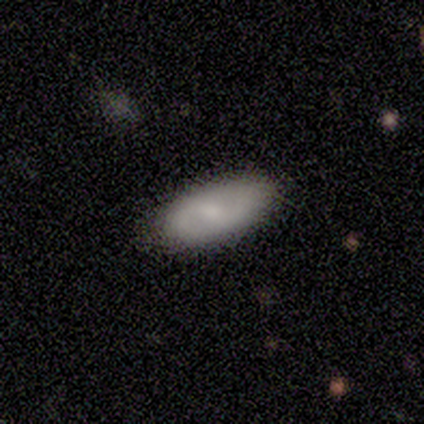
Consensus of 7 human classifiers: Q: Smooth or featured?
A: featured or disk (57%); runner-up: smooth (43%)
Q: Edge-on disk?
A: no (100%)
Q: Bar?
A: weak (100%)
Q: Spiral arms?
A: yes (100%)
Q: Spiral winding?
A: medium (75%); runner-up: loose (25%)
Q: Spiral arm count?
A: 2 (100%)
Q: Bulge size?
A: moderate (50%); tied with: small (50%)
Q: Merging?
A: none (86%); runner-up: minor disturbance (14%)